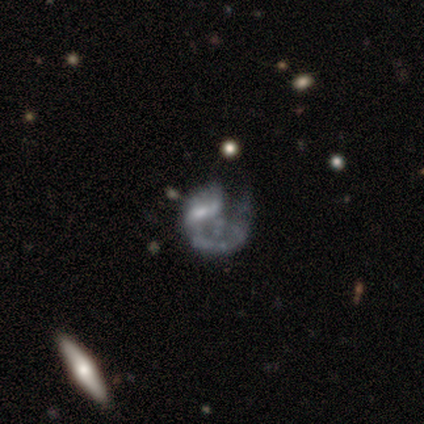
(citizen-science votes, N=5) This appears to be a featured or disk galaxy (80%) with no bar (50%), 1 (67%) loose (67%) spiral arms (75%) and a small central bulge (50%). Merging: major disturbance (60%).